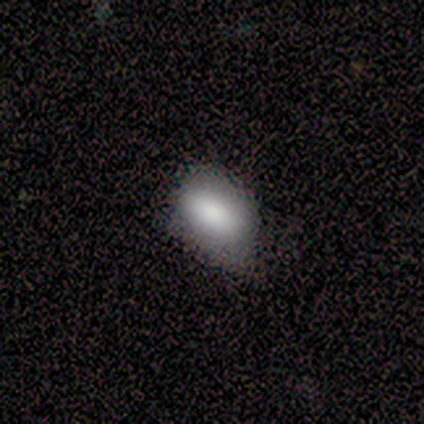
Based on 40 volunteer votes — Overall: smooth (88%). How rounded: in between (89%). Merging: none (33%; minor disturbance 31%).